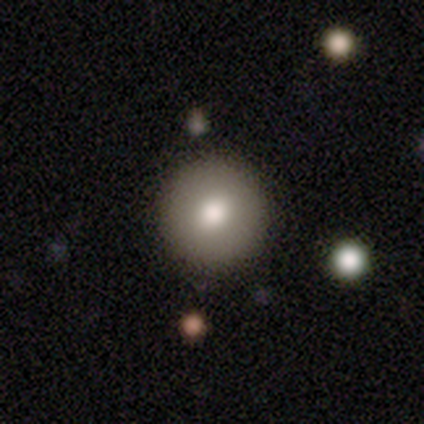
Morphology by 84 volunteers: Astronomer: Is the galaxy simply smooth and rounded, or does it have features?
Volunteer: smooth — 80%.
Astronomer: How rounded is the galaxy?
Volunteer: round — 99%.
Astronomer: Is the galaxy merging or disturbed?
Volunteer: none — 95%.